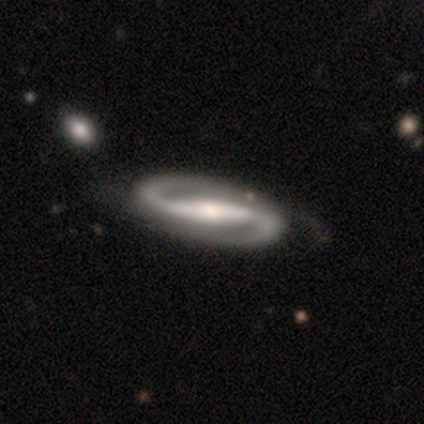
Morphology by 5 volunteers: A featured or disk galaxy (100%) with a strong bar (60%), 2 (100%) tight (40%, tied with medium) spiral arms (100%) and a moderate central bulge (80%). Merging: none (60%).